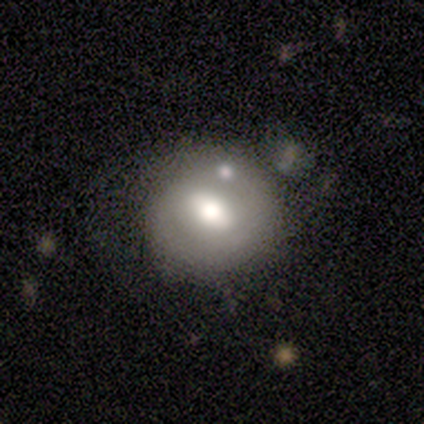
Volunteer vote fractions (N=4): This appears to be a smooth galaxy with no disk features (50%, tied with featured or disk) that is round (100%). Merging: none (50%).